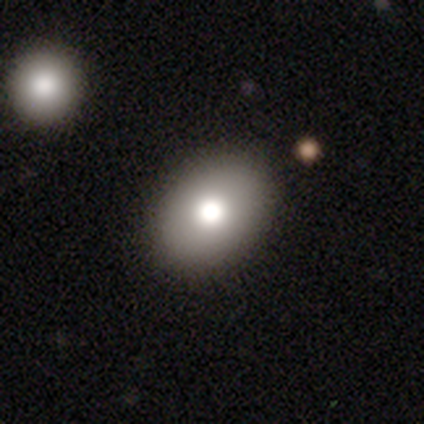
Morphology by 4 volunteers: This is possibly a smooth galaxy (50%, tied with featured or disk). How rounded: clearly in between (100%). Merging: clearly none (100%).